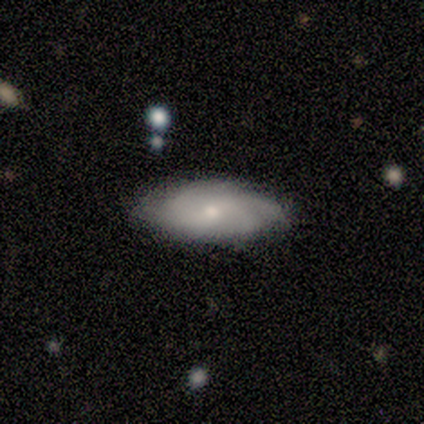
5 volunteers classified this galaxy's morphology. Smooth or featured? 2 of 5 (40%, tied with featured or disk) said smooth. How rounded? 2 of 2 (100%) said in between. Merging? 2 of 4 (50%) said none.